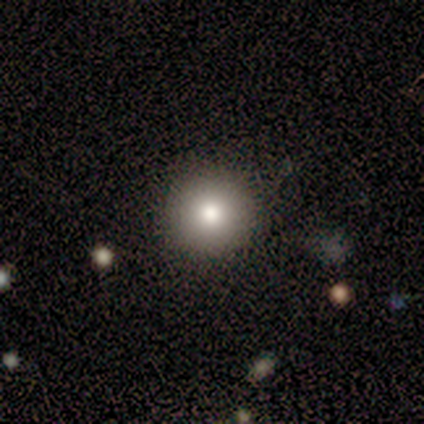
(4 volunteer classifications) smooth 50%, featured or disk 25%, star or artifact 25%. Down the decision tree: how rounded — round (100%); merging — none (100%).